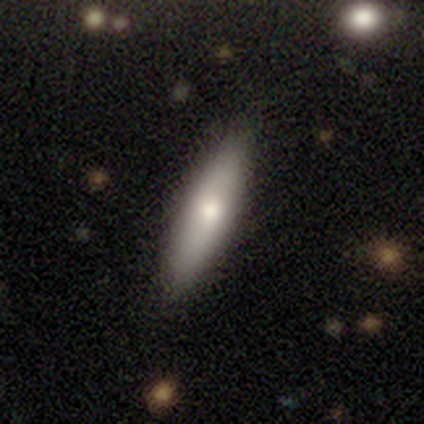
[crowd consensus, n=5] Q: Smooth or featured?
A: smooth (60%); runner-up: featured or disk (20%)
Q: How rounded?
A: cigar-shaped (100%)
Q: Merging?
A: none (100%)